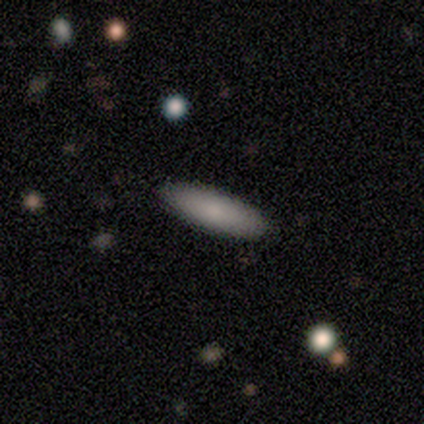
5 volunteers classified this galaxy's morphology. Smooth or featured: smooth — 80% (star or artifact — 20%)
How rounded: cigar-shaped — 75% (in between — 25%)
Merging: none — 100%